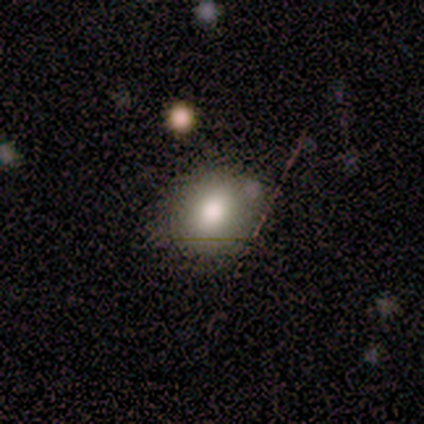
smooth_or_featured: smooth (p=0.75) [alt: star or artifact p=0.25]
how_rounded: round (p=0.67) [alt: in between p=0.33]
merging: minor disturbance (p=0.67) [alt: none p=0.33]